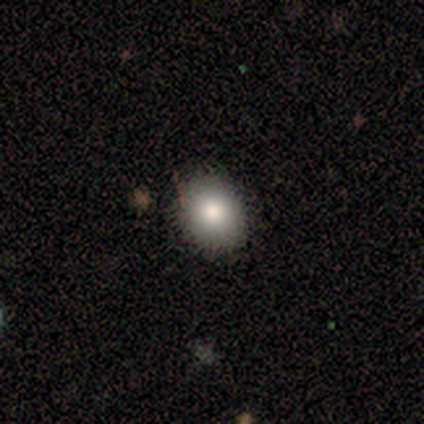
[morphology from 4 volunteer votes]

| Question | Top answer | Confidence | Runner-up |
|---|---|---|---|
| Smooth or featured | smooth | 100% | — |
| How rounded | round | 50% | tied: in between (50%) |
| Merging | none | 100% | — |